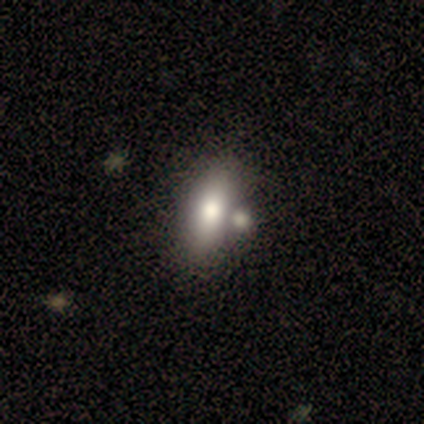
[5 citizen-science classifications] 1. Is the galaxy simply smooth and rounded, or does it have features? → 80% smooth, 20% featured or disk, 0% star or artifact.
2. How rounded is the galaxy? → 75% in between, 25% cigar-shaped, 0% round.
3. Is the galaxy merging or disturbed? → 60% none, 40% merger, 0% minor disturbance, 0% major disturbance.